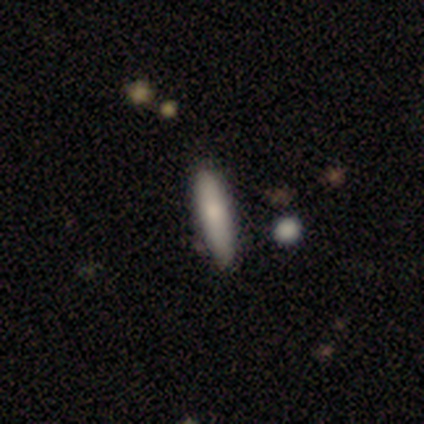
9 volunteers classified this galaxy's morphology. Volunteers were most divided on "smooth or featured": smooth: 78%, featured or disk: 22%, star or artifact: 0%. More confident: how rounded — cigar-shaped (100%); merging — none (78%).